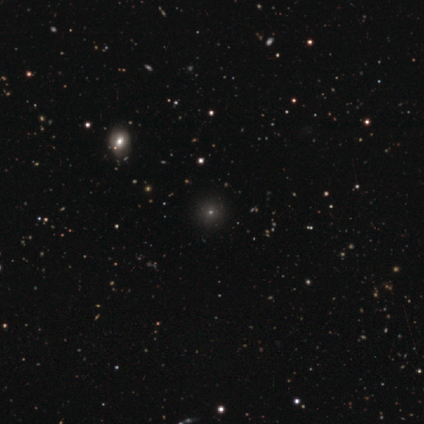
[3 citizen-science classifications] smooth-or-featured: star or artifact: 67% | smooth: 33% | featured or disk: 0%